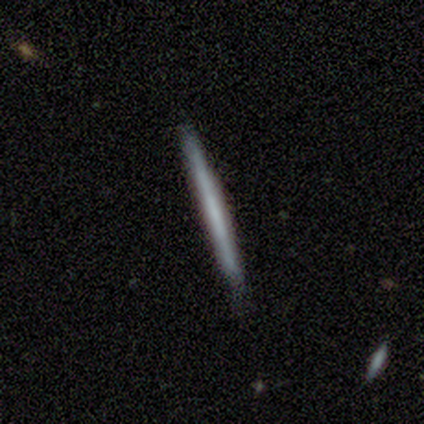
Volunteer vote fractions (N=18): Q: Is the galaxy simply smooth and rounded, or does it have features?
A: featured or disk — 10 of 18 (56%).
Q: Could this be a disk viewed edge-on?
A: yes — 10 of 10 (100%).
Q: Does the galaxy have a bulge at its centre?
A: none — 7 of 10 (70%).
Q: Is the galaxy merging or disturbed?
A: none — 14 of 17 (82%).